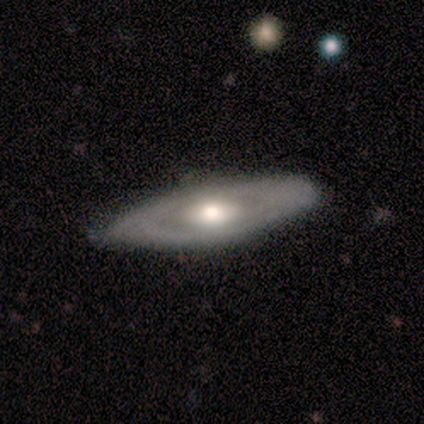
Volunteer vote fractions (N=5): Overall: featured or disk (60%; smooth 20%). Edge-on disk: no (67%; yes 33%). Bar: no (100%). Spiral arms: no (100%). Bulge size: moderate (100%). Merging: none (50%, tied with minor disturbance).